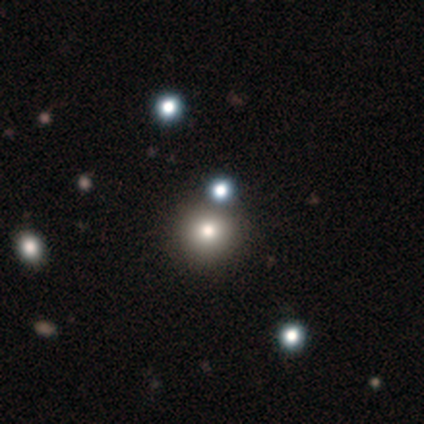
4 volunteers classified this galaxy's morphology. This appears to be a smooth galaxy with no disk features (75%) that is round (100%). Merging: none (67%).